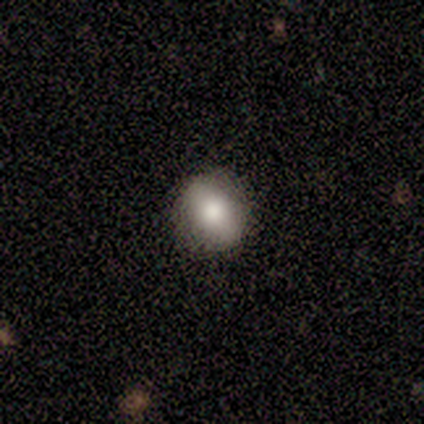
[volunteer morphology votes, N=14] smooth_or_featured: smooth (p=0.71) [alt: featured or disk p=0.14]
how_rounded: round (p=0.60) [alt: in between p=0.40]
merging: none (p=0.92) [alt: minor disturbance p=0.08]